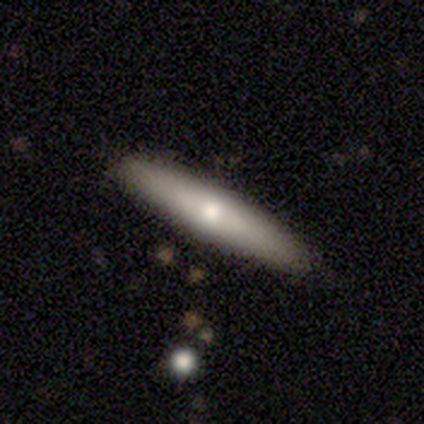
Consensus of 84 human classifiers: A smooth galaxy with no disk features (50%) that is cigar-shaped (95%).

Vote fractions:
- Smooth or featured? smooth: 50% / featured or disk: 45% / star or artifact: 5%
- How rounded? cigar-shaped: 95% / in between: 5% / round: 0%
- Merging? none: 89% / minor disturbance: 6% / major disturbance: 4% / merger: 1%